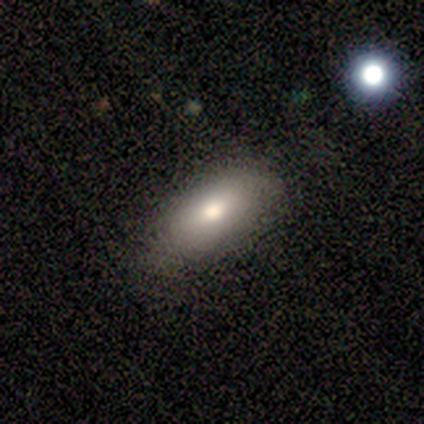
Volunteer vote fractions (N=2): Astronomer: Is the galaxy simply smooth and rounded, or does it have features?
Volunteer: smooth — 100%.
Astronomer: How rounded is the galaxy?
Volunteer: in between — 100%.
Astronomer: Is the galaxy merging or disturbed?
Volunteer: none — 100%.